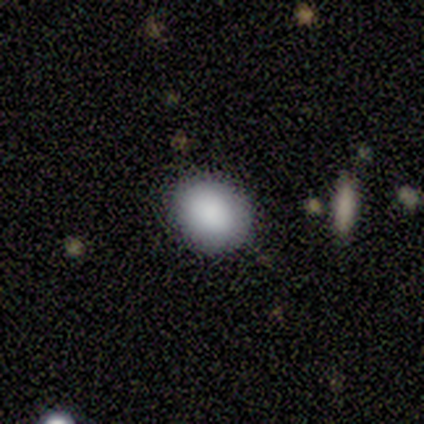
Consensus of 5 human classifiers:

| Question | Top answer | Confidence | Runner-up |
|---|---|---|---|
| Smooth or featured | smooth | 100% | — |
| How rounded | in between | 60% | round (40%) |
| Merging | none | 100% | — |